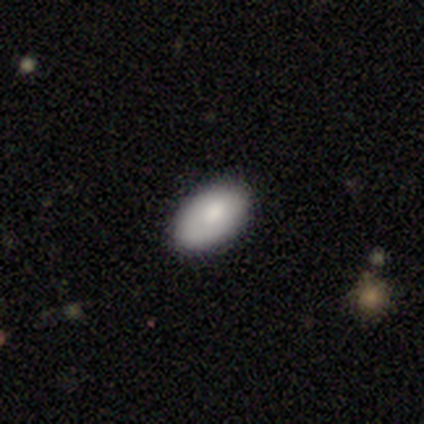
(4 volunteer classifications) A smooth galaxy with no disk features (75%) that is in between round and cigar-shaped (100%). Merging: none (100%).